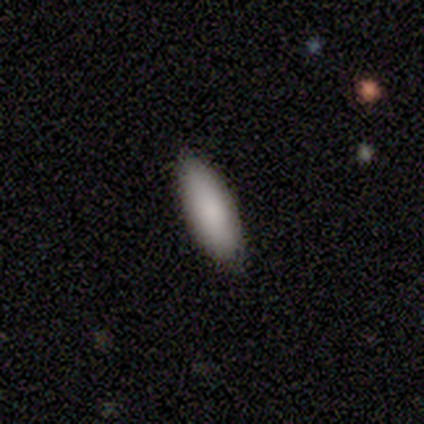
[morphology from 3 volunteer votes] Q: Smooth or featured?
A: smooth (100%)
Q: How rounded?
A: cigar-shaped (67%); runner-up: in between (33%)
Q: Merging?
A: none (67%); runner-up: minor disturbance (33%)